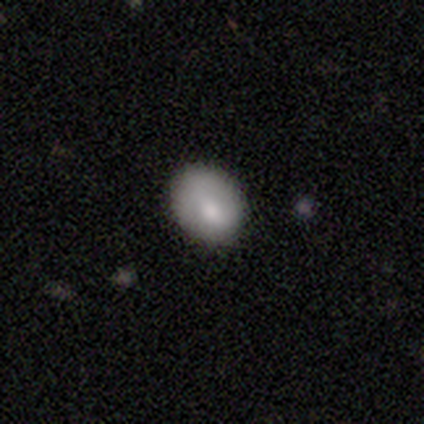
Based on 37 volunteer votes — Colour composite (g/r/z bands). It shows a smooth galaxy with no disk features (78%) that is in between round and cigar-shaped (69%). Merging: none (67%).